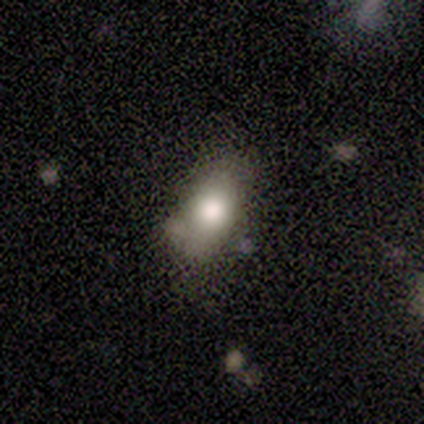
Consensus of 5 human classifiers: This is likely a smooth galaxy (60%). How rounded: likely in between (67%). Merging: possibly none (50%).